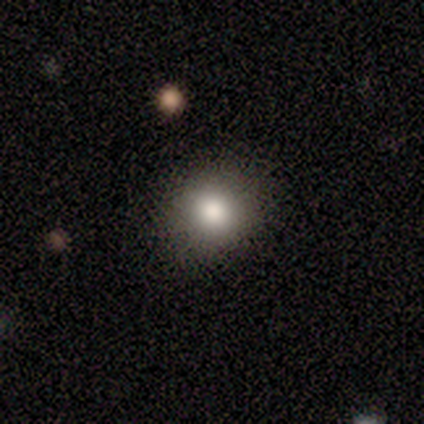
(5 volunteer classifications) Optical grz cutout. It shows a smooth galaxy with no disk features (100%) that is round (100%). Merging: none (80%).